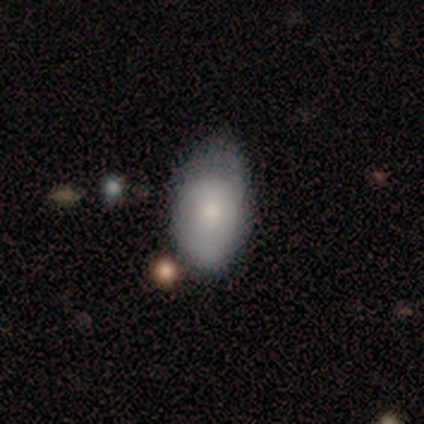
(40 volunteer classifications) This is likely a smooth galaxy (78%). How rounded: clearly in between (94%). Merging: possibly none (46%).